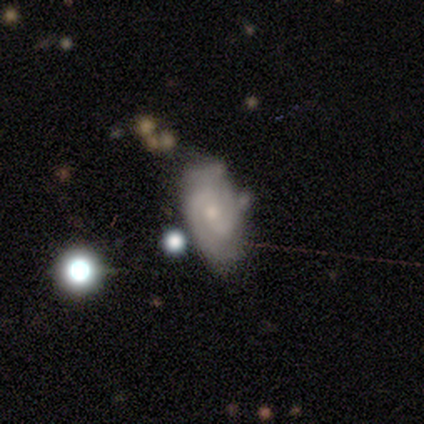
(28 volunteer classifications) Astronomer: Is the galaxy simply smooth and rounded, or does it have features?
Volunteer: featured or disk — 71%.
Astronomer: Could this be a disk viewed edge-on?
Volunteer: no — 95%.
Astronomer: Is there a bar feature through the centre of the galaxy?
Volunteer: weak — 53% (runner-up: no, 37%).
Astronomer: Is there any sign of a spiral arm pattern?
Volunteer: yes — 84%.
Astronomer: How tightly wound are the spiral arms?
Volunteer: tight — 62%.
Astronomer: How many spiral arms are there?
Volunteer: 2 — 88%.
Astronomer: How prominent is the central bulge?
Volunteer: moderate — 53% (runner-up: small, 42%).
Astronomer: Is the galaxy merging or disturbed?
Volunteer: none — 55% (runner-up: minor disturbance, 32%).